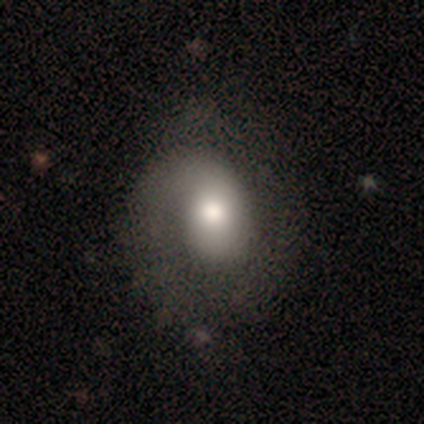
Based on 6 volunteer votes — Volunteers were most divided on "spiral winding": tight: 50%, medium: 25%, loose: 25%. More confident: edge-on disk — no (100%); bar — no (100%); spiral arms — yes (100%); spiral arm count — 1 (100%); bulge size — large (75%); smooth or featured — featured or disk (67%); merging — none (67%).